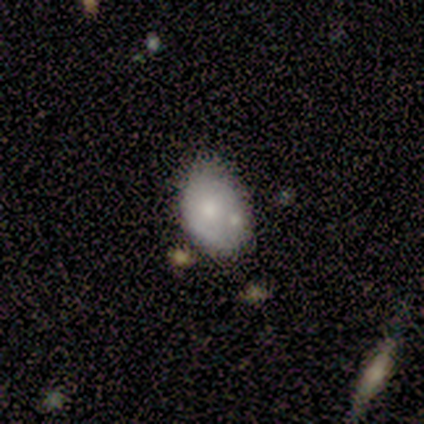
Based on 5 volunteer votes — Smooth or featured?
  - smooth: 40% * (tied)
  - featured or disk: 40% * (tied)
  - star or artifact: 20%
How rounded?
  - in between: 100% *
  - round: 0%
  - cigar-shaped: 0%
Merging?
  - none: 50% *
  - minor disturbance: 25%
  - merger: 25%
  - major disturbance: 0%